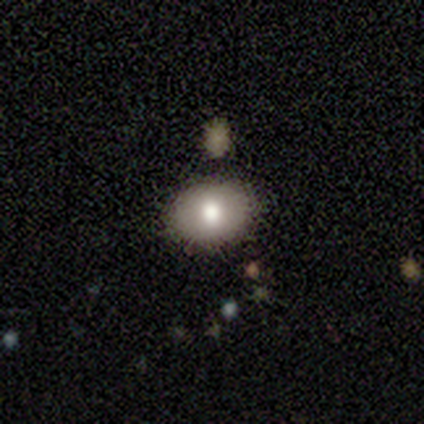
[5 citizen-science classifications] Smooth or featured: smooth — 60% (featured or disk — 40%)
How rounded: round — 67% (in between — 33%)
Merging: none — 100%